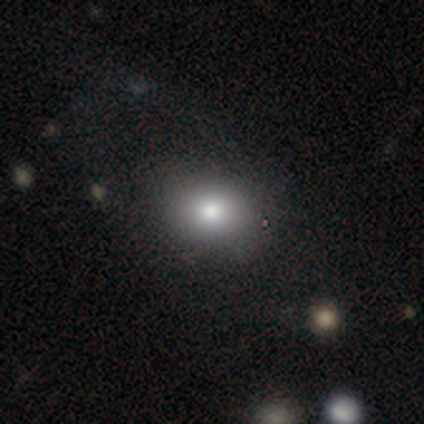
Overall: smooth (56%; featured or disk 22%). How rounded: in between (80%). Merging: none (86%).